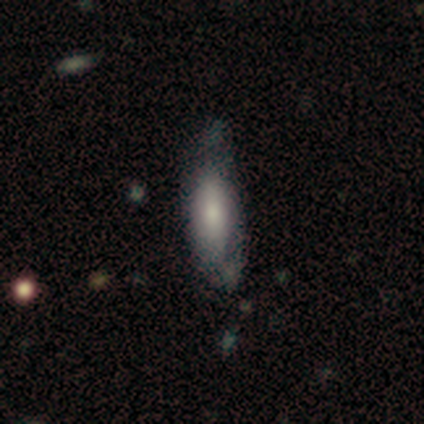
Morphology: type=featured or disk (50%); edge-on=no (67%); bar=no (100%); spiral arms=no (100%); bulge=moderate (50%, tied with small); merging=none (60%).